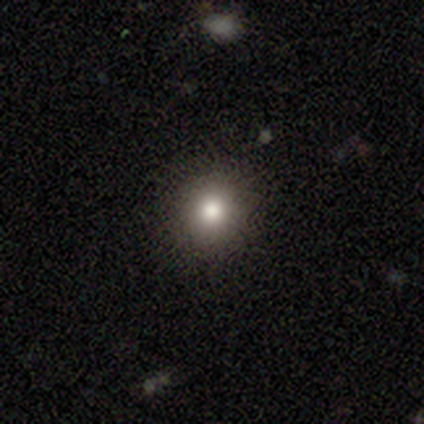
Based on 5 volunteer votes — Smooth or featured? 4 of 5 (80%) said smooth. How rounded? 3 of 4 (75%) said round. Merging? 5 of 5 (100%) said none.